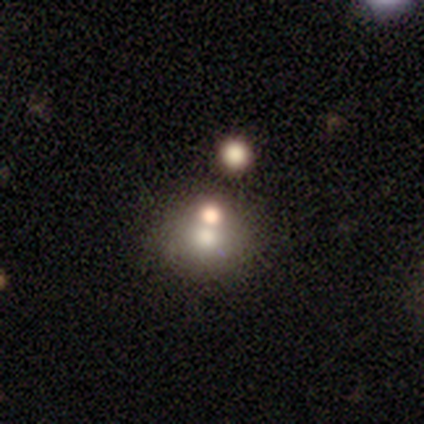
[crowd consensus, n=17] smooth 59%, featured or disk 24%, star or artifact 18%. Down the decision tree: how rounded — round (80%); merging — none (57%).